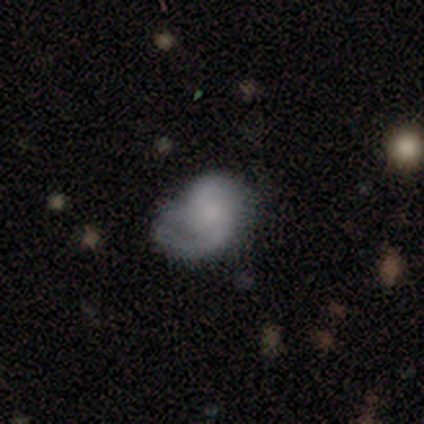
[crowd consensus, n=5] smooth_or_featured: smooth (p=0.40) [tied with: featured or disk p=0.40]
how_rounded: round (p=0.50) [tied with: in between p=0.50]
merging: major disturbance (p=0.50) [alt: none p=0.25]